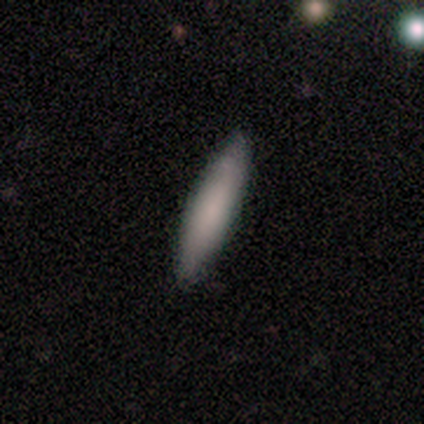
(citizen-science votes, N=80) Smooth or featured?
  - smooth: 81% *
  - featured or disk: 16%
  - star or artifact: 2%
How rounded?
  - cigar-shaped: 88% *
  - in between: 12%
  - round: 0%
Merging?
  - none: 53% *
  - minor disturbance: 4%
  - major disturbance: 3%
  - merger: 0%